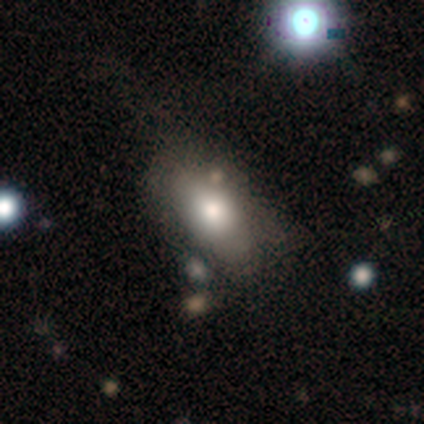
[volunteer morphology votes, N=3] A smooth galaxy with no disk features (33%, tied with featured or disk and star or artifact) that is in between round and cigar-shaped (100%). Merging: minor disturbance (50%, tied with major disturbance).